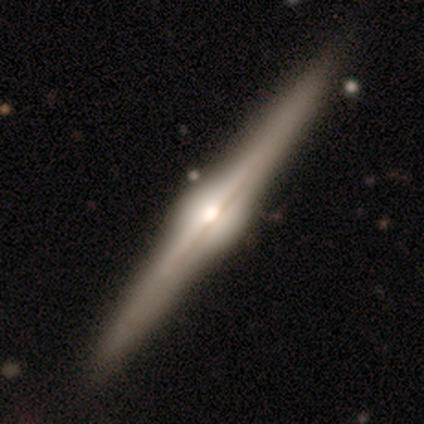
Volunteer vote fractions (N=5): smooth_or_featured: featured or disk (p=1.00)
disk_edge_on: yes (p=1.00)
edge_on_bulge: rounded (p=1.00)
merging: none (p=1.00)